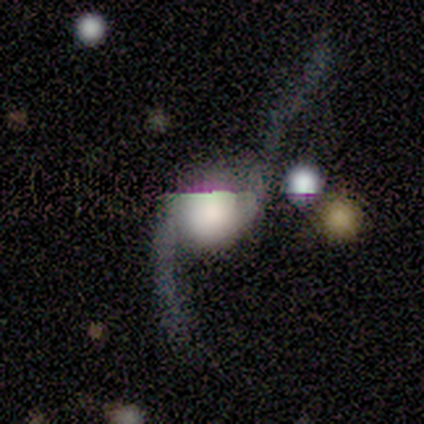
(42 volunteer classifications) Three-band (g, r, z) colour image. It shows a featured or disk galaxy (83%) with no bar (74%), 2 (97%) loose (97%) spiral arms (86%) and a dominant central bulge (46%). Merging: major disturbance (43%).